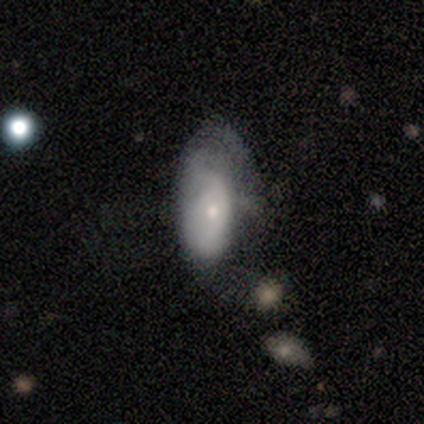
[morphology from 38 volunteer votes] smooth_or_featured: featured or disk (p=0.50) [alt: smooth p=0.45]
disk_edge_on: no (p=0.74) [alt: yes p=0.26]
bar: no (p=0.79) [alt: weak p=0.14]
has_spiral_arms: yes (p=0.50) [tied with: no p=0.50]
spiral_winding: tight (p=0.57) [alt: medium p=0.43]
spiral_arm_count: can't tell (p=0.57) [alt: 1 p=0.29]
bulge_size: moderate (p=0.57) [alt: small p=0.21]
merging: major disturbance (p=0.44) [alt: none p=0.36]